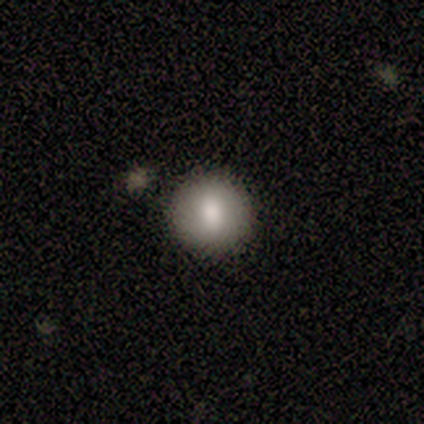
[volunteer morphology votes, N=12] A smooth galaxy with no disk features (83%) that is round (90%). Merging: none (100%).